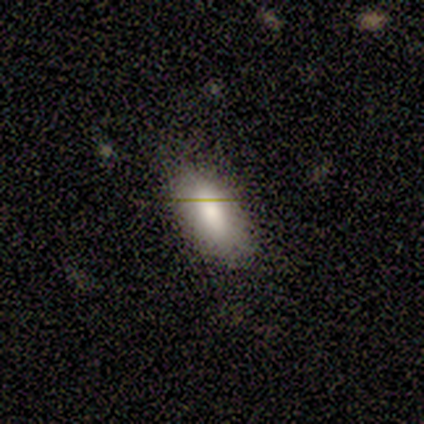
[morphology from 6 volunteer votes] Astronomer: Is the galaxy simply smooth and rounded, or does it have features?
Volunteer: smooth — 83%.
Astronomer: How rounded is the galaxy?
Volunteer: in between — 100%.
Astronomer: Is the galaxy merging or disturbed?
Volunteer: none — 80%.